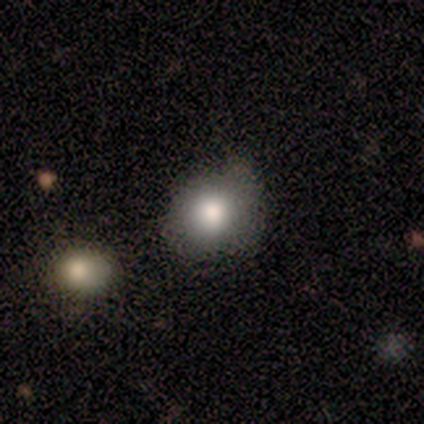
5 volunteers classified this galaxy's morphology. Q: Smooth or featured?
A: smooth (60%); runner-up: featured or disk (40%)
Q: How rounded?
A: round (100%)
Q: Merging?
A: none (100%)